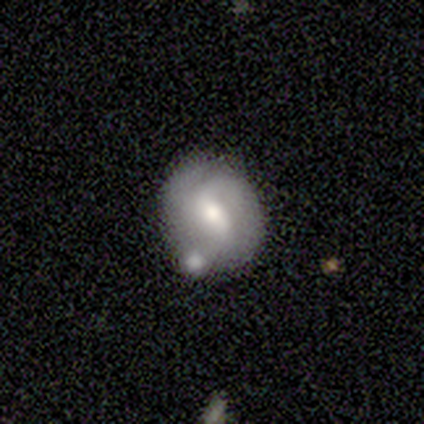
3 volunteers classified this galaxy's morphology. This appears to be a featured or disk galaxy (100%) with a weak bar (100%), 3 (67%) tight (33%, tied with medium and loose) spiral arms (100%) and a moderate central bulge (100%). Merging: none (33%, tied with minor disturbance and merger).